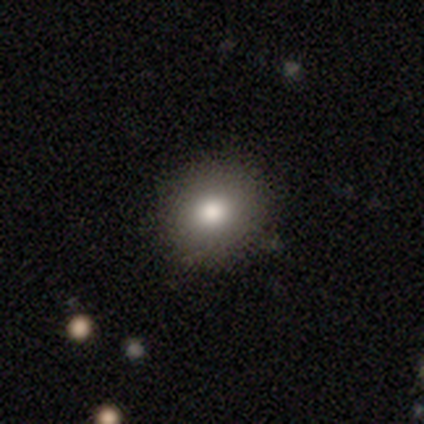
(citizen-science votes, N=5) A smooth galaxy with no disk features (80%) that is round (100%).

Vote fractions:
- Smooth or featured? smooth: 80% / featured or disk: 20% / star or artifact: 0%
- How rounded? round: 100% / in between: 0% / cigar-shaped: 0%
- Merging? none: 100% / minor disturbance: 0% / major disturbance: 0% / merger: 0%